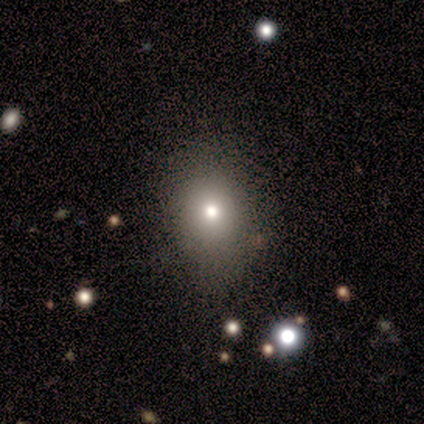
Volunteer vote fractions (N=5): Overall: smooth (80%). How rounded: round (50%, tied with in between). Merging: none (80%).